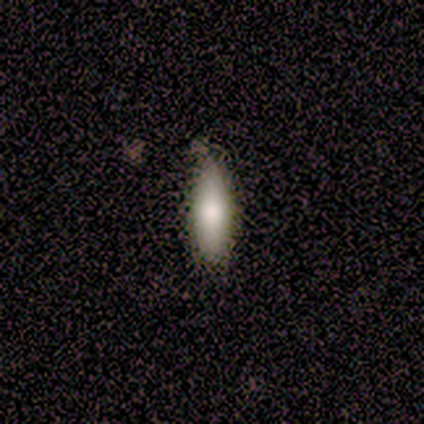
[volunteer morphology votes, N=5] Smooth or featured? smooth (100%)
How rounded? cigar-shaped (60%)
Merging? none (100%)